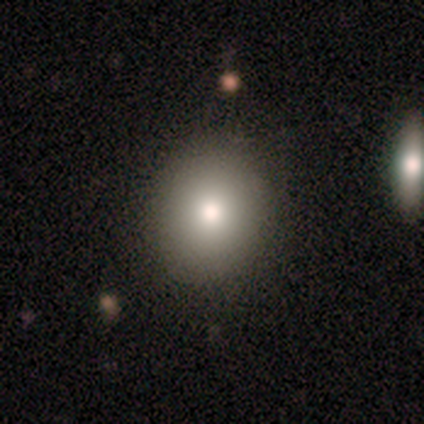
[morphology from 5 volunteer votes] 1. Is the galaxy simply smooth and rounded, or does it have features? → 80% smooth, 20% featured or disk, 0% star or artifact.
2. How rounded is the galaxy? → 100% in between, 0% round, 0% cigar-shaped.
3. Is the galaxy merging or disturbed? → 80% none, 20% major disturbance, 0% minor disturbance, 0% merger.